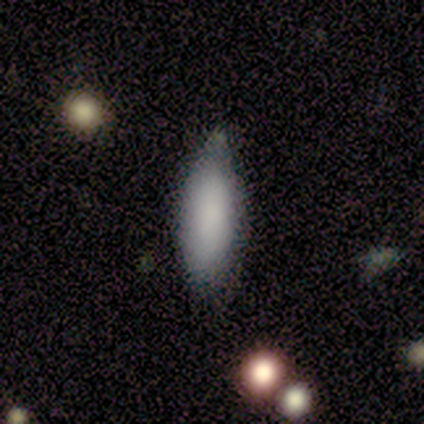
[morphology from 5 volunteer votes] type=smooth (80%); roundness=in between (100%); merging=none (80%).